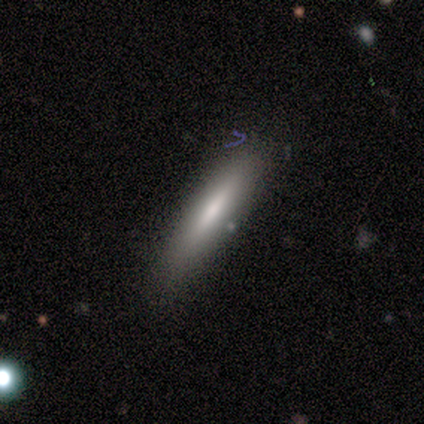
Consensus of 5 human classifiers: smooth 60%, featured or disk 40%, star or artifact 0%. Down the decision tree: how rounded — cigar-shaped (100%); merging — none (80%).